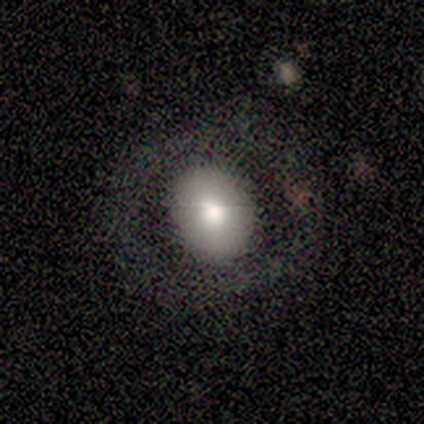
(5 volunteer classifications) Smooth or featured? 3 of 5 (60%) said featured or disk. Edge-on disk? 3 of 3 (100%) said no. Bar? 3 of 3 (100%) said no. Spiral arms? 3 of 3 (100%) said no. Bulge size? 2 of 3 (67%) said large. Merging? 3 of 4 (75%) said none.